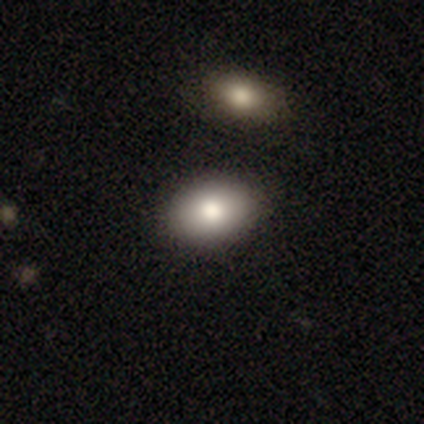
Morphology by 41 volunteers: Q: Smooth or featured?
A: smooth (83%); runner-up: featured or disk (15%)
Q: How rounded?
A: in between (76%); runner-up: round (24%)
Q: Merging?
A: none (85%); runner-up: minor disturbance (10%)